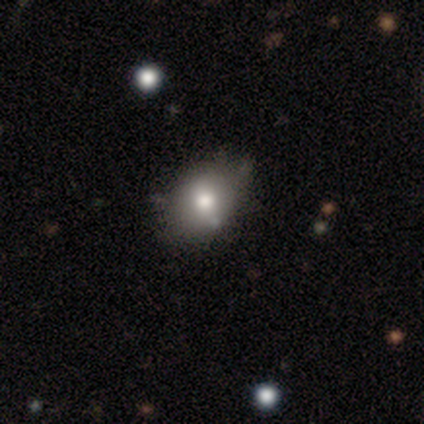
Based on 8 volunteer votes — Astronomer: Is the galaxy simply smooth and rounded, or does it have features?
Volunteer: smooth — 75%.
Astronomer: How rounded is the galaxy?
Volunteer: in between — 100%.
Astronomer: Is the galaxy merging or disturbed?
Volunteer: none — 83%.